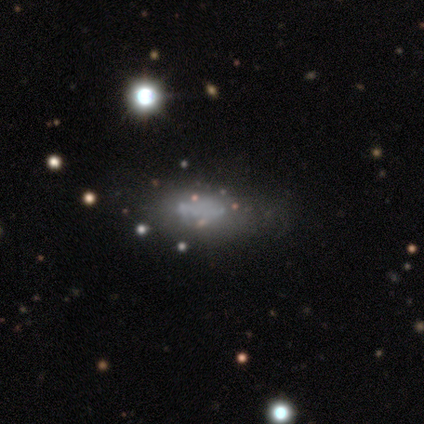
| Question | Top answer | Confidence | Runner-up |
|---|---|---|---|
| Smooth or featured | smooth | 44% | tied: featured or disk (44%) |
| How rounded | in between | 57% | cigar-shaped (43%) |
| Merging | none | 79% | major disturbance (14%) |